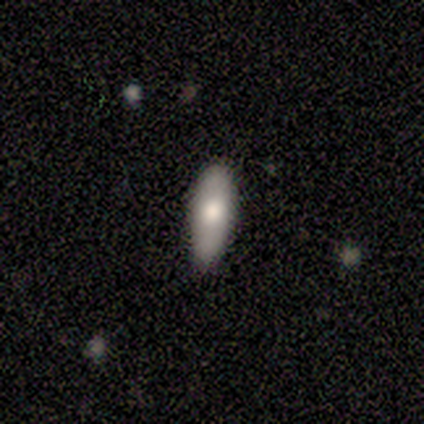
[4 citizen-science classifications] A smooth galaxy with no disk features (75%) that is in between round and cigar-shaped (67%).

Vote fractions:
- Smooth or featured? smooth: 75% / featured or disk: 25% / star or artifact: 0%
- How rounded? in between: 67% / cigar-shaped: 33% / round: 0%
- Merging? none: 75% / minor disturbance: 25% / major disturbance: 0% / merger: 0%